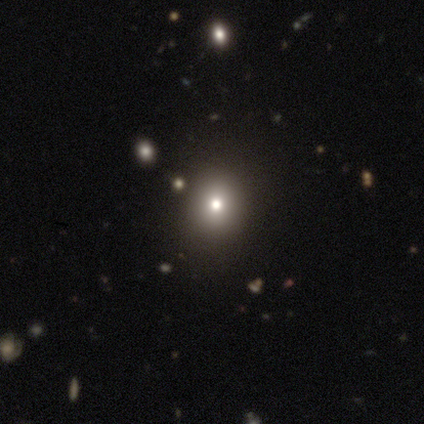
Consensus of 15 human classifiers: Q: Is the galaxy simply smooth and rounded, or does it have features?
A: smooth — 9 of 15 (60%).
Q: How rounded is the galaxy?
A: in between — 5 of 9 (56%).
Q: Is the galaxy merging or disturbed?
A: none — 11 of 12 (92%).